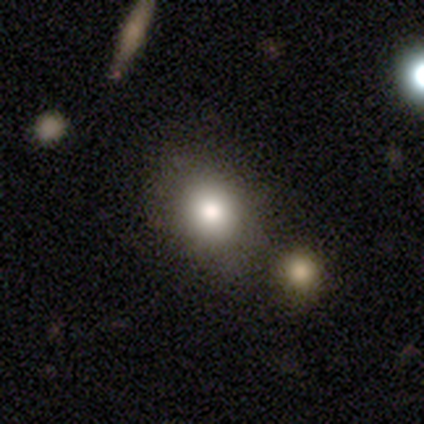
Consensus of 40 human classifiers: Volunteers were most divided on "how rounded" (2-way tie): round: 50%, in between: 50%, cigar-shaped: 0%. More confident: smooth or featured — smooth (80%); merging — none (51%).